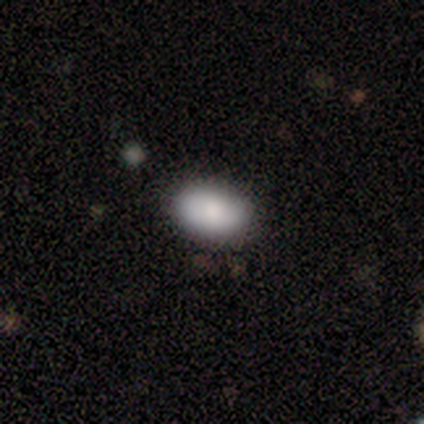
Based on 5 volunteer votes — smooth_or_featured: smooth (p=1.00)
how_rounded: in between (p=1.00)
merging: none (p=1.00)